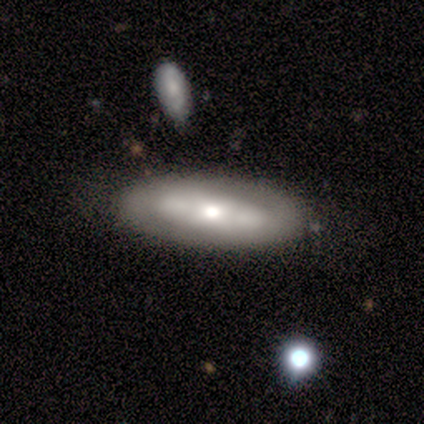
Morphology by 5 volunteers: Smooth or featured?
  - smooth: 60% *
  - featured or disk: 40%
  - star or artifact: 0%
How rounded?
  - in between: 67% *
  - cigar-shaped: 33%
  - round: 0%
Merging?
  - none: 80% *
  - merger: 20%
  - minor disturbance: 0%
  - major disturbance: 0%